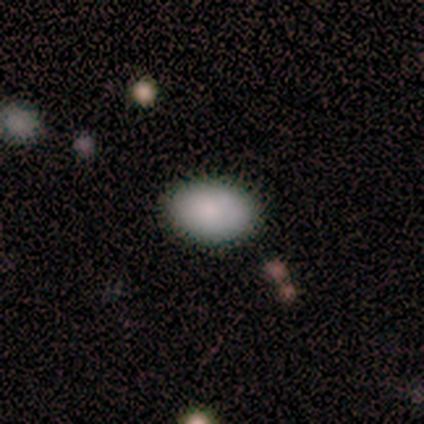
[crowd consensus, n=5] Smooth or featured?
  - smooth: 80% *
  - featured or disk: 20%
  - star or artifact: 0%
How rounded?
  - in between: 100% *
  - round: 0%
  - cigar-shaped: 0%
Merging?
  - none: 80% *
  - minor disturbance: 20%
  - major disturbance: 0%
  - merger: 0%